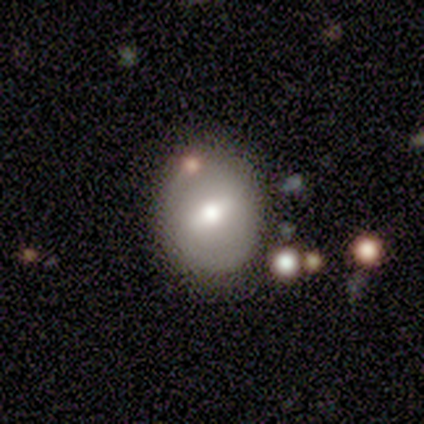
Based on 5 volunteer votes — Overall: smooth (60%; featured or disk 40%). How rounded: round (100%). Merging: none (80%).